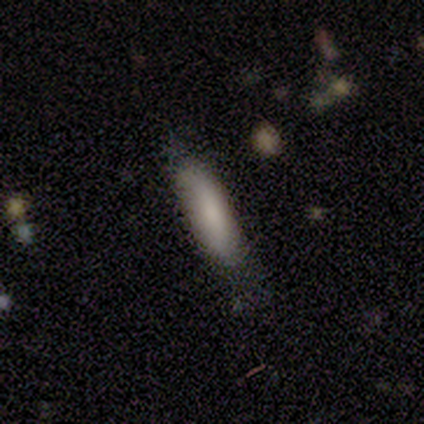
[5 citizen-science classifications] Smooth or featured: smooth — 80% (star or artifact — 20%)
How rounded: cigar-shaped — 75% (in between — 25%)
Merging: none — 50% (minor disturbance — 25%)